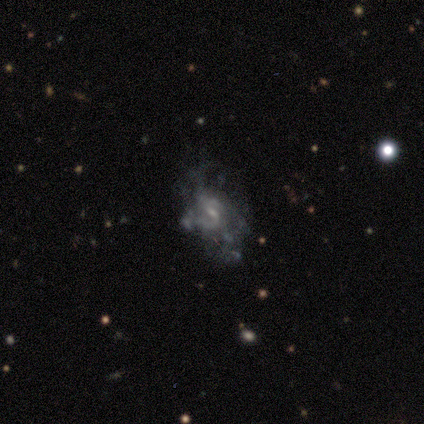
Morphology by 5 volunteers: Smooth or featured: featured or disk — 60% (star or artifact — 40%)
Edge-on disk: no — 100%
Bar: no — 67% (strong — 33%)
Spiral arms: yes — 100%
Spiral winding: medium — 67% (tight — 33%)
Spiral arm count: 2 — 67% (can't tell — 33%)
Bulge size: small — 67% (moderate — 33%)
Merging: none — 67% (major disturbance — 33%)